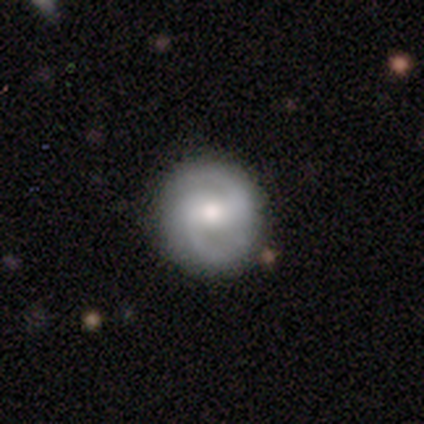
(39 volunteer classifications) Smooth or featured? 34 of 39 (87%) said featured or disk. Edge-on disk? 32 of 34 (94%) said no. Bar? 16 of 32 (50%) said weak. Spiral arms? 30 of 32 (94%) said yes. Spiral winding? 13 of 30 (43%) said medium. Spiral arm count? 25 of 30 (83%) said 2. Bulge size? 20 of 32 (62%) said moderate. Merging? 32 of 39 (82%) said none.